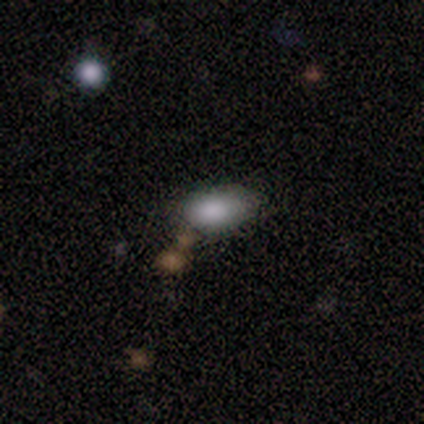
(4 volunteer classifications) This is possibly a smooth galaxy (50%, tied with star or artifact). How rounded: possibly round (50%, tied with in between). Merging: possibly none (50%, tied with major disturbance).